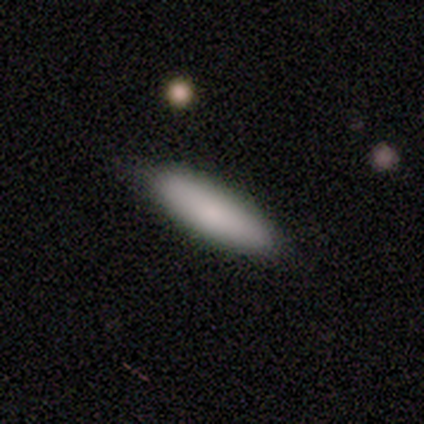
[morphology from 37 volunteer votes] type=smooth (95%); roundness=cigar-shaped (57%); merging=none (89%).